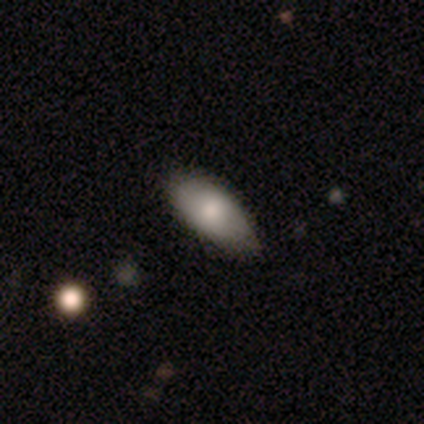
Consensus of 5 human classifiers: Overall: smooth (80%). How rounded: in between (100%). Merging: minor disturbance (80%).